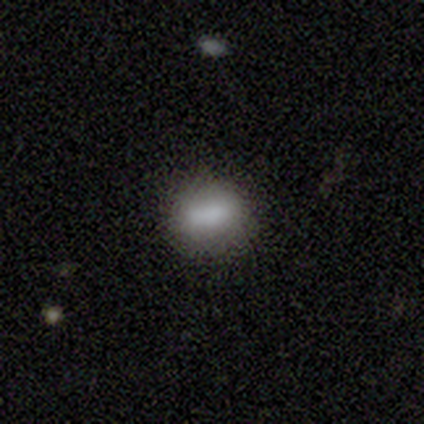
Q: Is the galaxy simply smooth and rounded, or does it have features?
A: smooth — 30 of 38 (79%).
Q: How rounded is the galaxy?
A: in between — 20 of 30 (67%).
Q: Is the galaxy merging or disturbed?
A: none — 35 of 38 (92%).